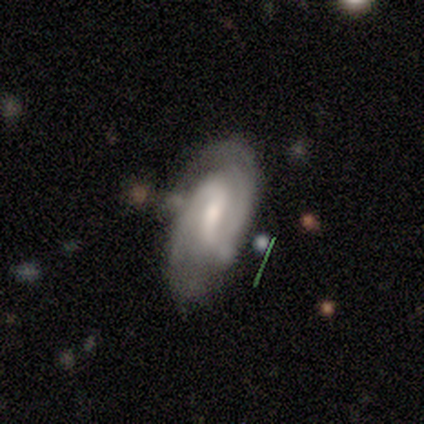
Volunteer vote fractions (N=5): Smooth or featured? 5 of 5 (100%) said featured or disk. Edge-on disk? 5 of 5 (100%) said no. Bar? 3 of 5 (60%) said weak. Spiral arms? 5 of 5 (100%) said yes. Spiral winding? 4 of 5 (80%) said tight. Spiral arm count? 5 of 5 (100%) said 2. Bulge size? 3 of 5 (60%) said moderate. Merging? 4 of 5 (80%) said none.